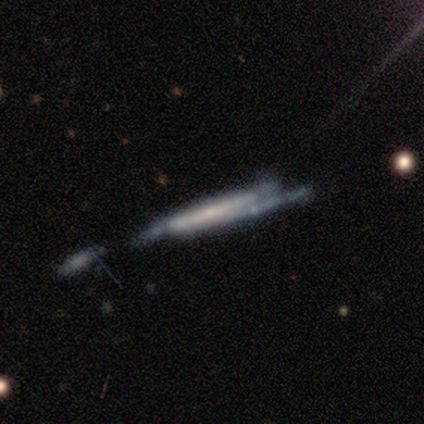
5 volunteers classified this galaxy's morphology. This is likely a star or artifact rather than a galaxy (60%).